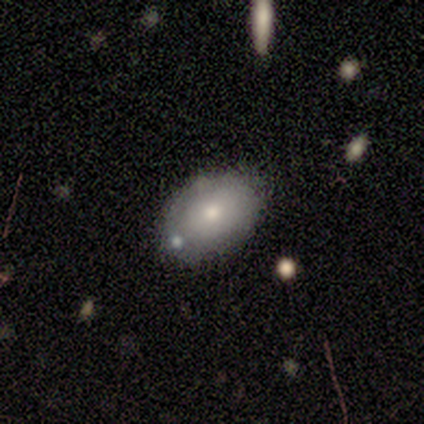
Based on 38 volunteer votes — Smooth or featured: smooth — 61% (featured or disk — 32%)
How rounded: in between — 83% (round — 13%)
Merging: none — 71% (minor disturbance — 11%)